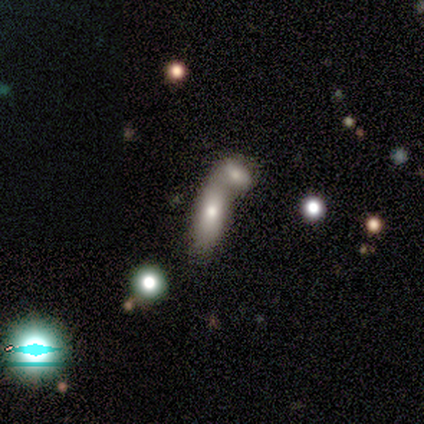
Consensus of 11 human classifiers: Smooth or featured? 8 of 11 (73%) said smooth. How rounded? 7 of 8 (88%) said in between. Merging? 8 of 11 (73%) said merger.